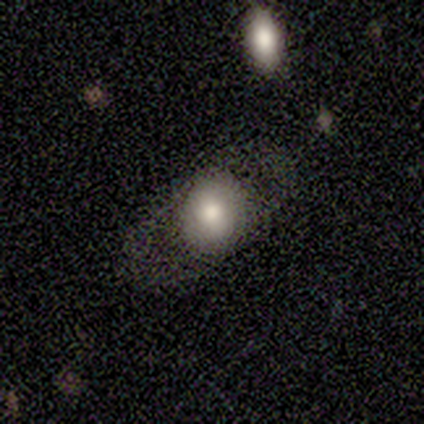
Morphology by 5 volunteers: smooth-or-featured: smooth: 80% | featured or disk: 20% | star or artifact: 0%
  how-rounded: round: 50% (tied) | in between: 50% (tied) | cigar-shaped: 0%
  merging: none: 80% | major disturbance: 20% | minor disturbance: 0% | merger: 0%